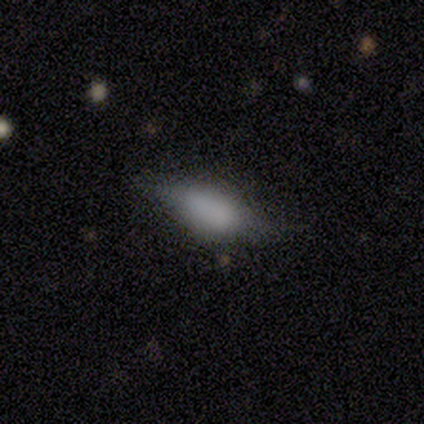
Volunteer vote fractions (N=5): This appears to be a featured or disk galaxy (60%) with no bar (100%), 2 (100%) loose (100%) spiral arms (50%, tied with no) and a large central bulge (50%, tied with none). Merging: none (60%).